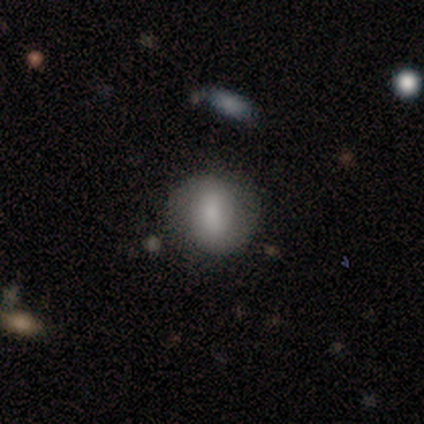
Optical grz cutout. It shows a smooth galaxy with no disk features (50%) that is round (100%). Merging: none (100%).